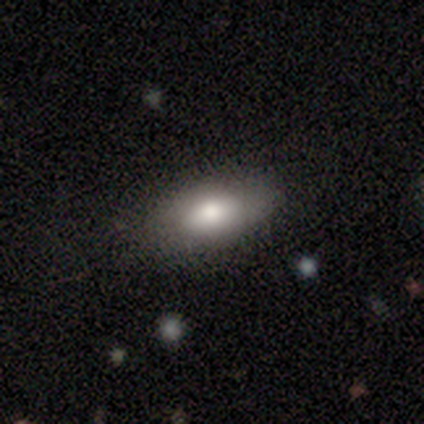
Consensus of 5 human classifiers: smooth 80%, featured or disk 20%, star or artifact 0%. Down the decision tree: how rounded — in between (100%); merging — none (60%).